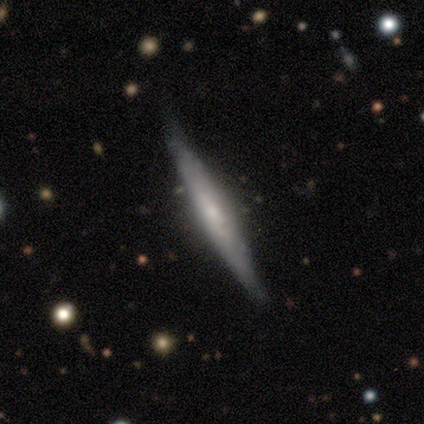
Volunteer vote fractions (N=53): Overall: featured or disk (81%). Edge-on disk: yes (93%). Edge-on bulge: rounded (65%). Merging: none (68%).